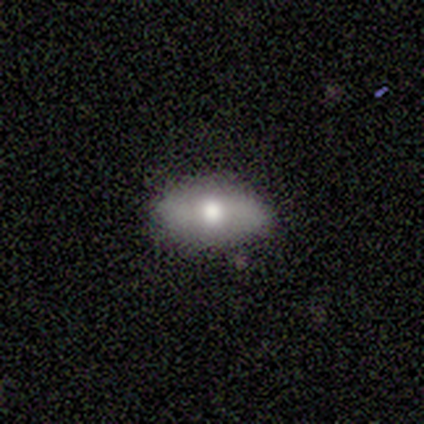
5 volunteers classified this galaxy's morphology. A smooth galaxy with no disk features (80%) that is in between round and cigar-shaped (75%).

Vote fractions:
- Smooth or featured? smooth: 80% / featured or disk: 20% / star or artifact: 0%
- How rounded? in between: 75% / cigar-shaped: 25% / round: 0%
- Merging? none: 80% / merger: 20% / minor disturbance: 0% / major disturbance: 0%